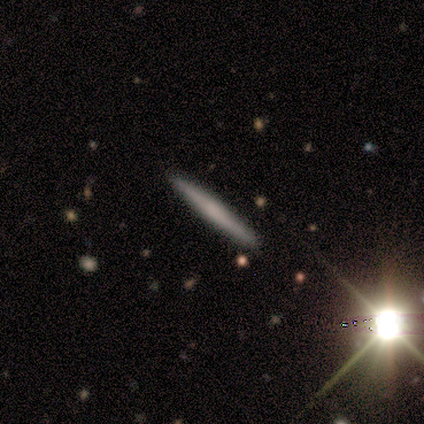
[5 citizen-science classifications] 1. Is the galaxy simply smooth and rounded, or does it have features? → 60% smooth, 40% featured or disk, 0% star or artifact.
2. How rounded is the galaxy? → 100% cigar-shaped, 0% round, 0% in between.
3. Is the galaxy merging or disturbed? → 80% none, 20% minor disturbance, 0% major disturbance, 0% merger.